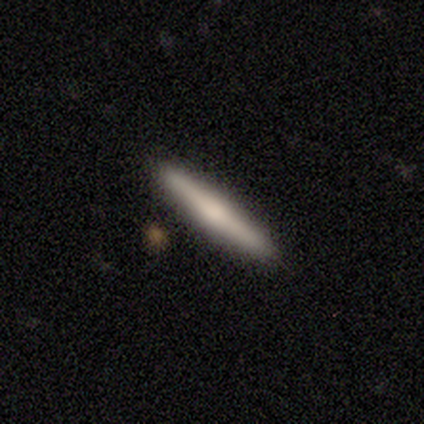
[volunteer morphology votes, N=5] This is clearly a smooth galaxy (80%). How rounded: clearly cigar-shaped (100%). Merging: clearly none (100%).